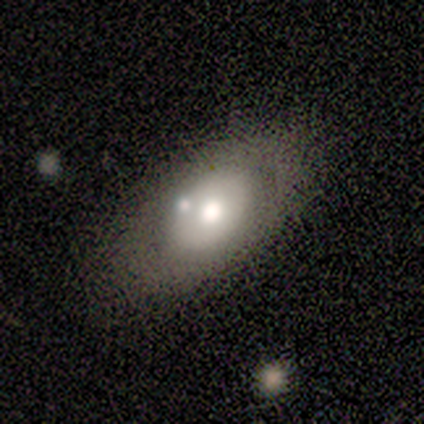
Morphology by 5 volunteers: Overall: smooth (100%). How rounded: in between (80%). Merging: none (80%).